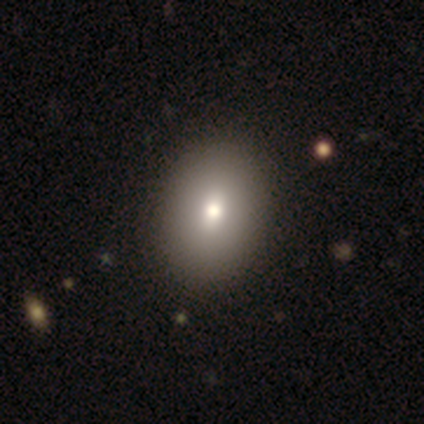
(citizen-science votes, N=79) smooth 80%, featured or disk 16%, star or artifact 4%. Down the decision tree: how rounded — in between (73%); merging — none (49%).